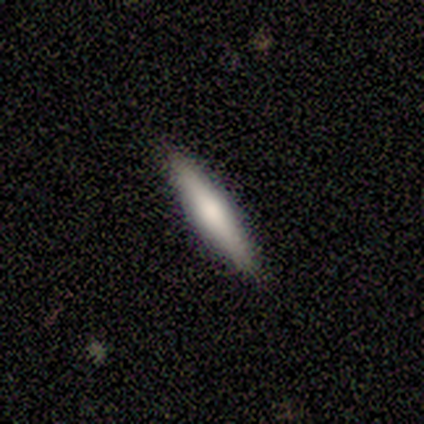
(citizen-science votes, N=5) A smooth galaxy with no disk features (60%) that is cigar-shaped (67%).

Vote fractions:
- Smooth or featured? smooth: 60% / featured or disk: 40% / star or artifact: 0%
- How rounded? cigar-shaped: 67% / in between: 33% / round: 0%
- Merging? none: 80% / minor disturbance: 20% / major disturbance: 0% / merger: 0%